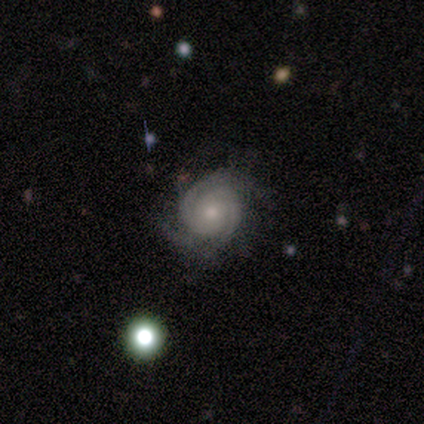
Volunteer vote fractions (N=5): Smooth or featured?
  - featured or disk: 100% *
  - smooth: 0%
  - star or artifact: 0%
Edge-on disk?
  - no: 100% *
  - yes: 0%
Bar?
  - no: 80% *
  - weak: 20%
  - strong: 0%
Spiral arms?
  - yes: 100% *
  - no: 0%
Spiral winding?
  - tight: 60% *
  - medium: 20%
  - loose: 20%
Spiral arm count?
  - 2: 60% *
  - 3: 20%
  - can't tell: 20%
  - 1: 0%
  - 4: 0%
  - more than 4: 0%
Bulge size?
  - moderate: 80% *
  - small: 20%
  - dominant: 0%
  - large: 0%
  - none: 0%
Merging?
  - none: 80% *
  - major disturbance: 20%
  - minor disturbance: 0%
  - merger: 0%